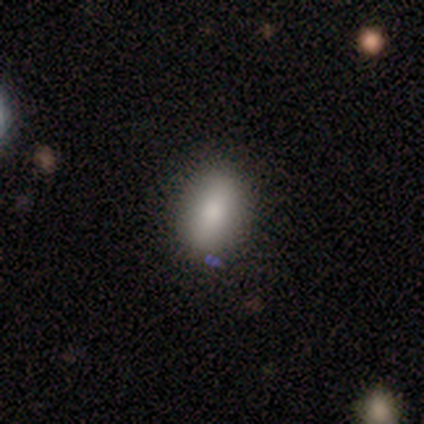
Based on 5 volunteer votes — A smooth galaxy with no disk features (60%) that is round (67%).

Vote fractions:
- Smooth or featured? smooth: 60% / featured or disk: 20% / star or artifact: 20%
- How rounded? round: 67% / in between: 33% / cigar-shaped: 0%
- Merging? none: 100% / minor disturbance: 0% / major disturbance: 0% / merger: 0%